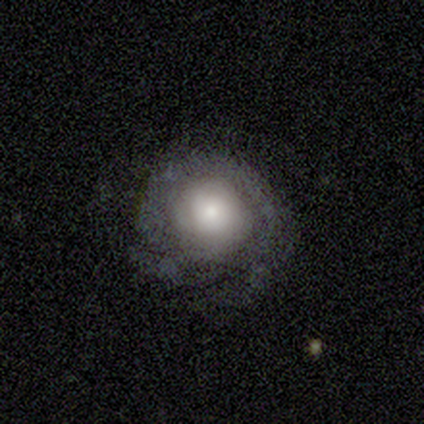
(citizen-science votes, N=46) Volunteers were most divided on "bulge size" (2-way tie): large: 38%, moderate: 38%, small: 15%, none: 8%, dominant: 0%. More confident: edge-on disk — no (96%); bar — no (88%); spiral winding — tight (74%); spiral arms — yes (73%); merging — none (64%); smooth or featured — featured or disk (59%); spiral arm count — 2 (58%).